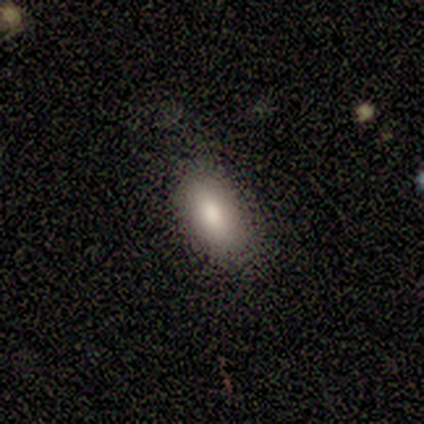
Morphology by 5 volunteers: smooth_or_featured: smooth (p=1.00)
how_rounded: in between (p=1.00)
merging: none (p=1.00)